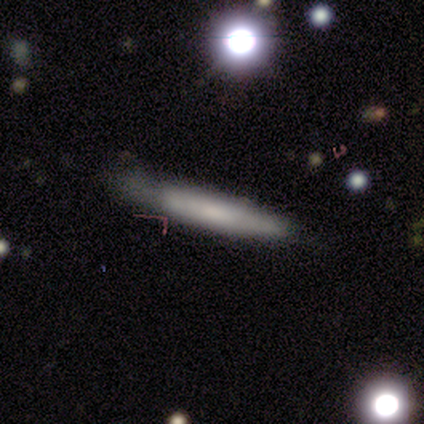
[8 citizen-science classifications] This is likely a smooth galaxy (75%). How rounded: clearly cigar-shaped (100%). Merging: marginally none (38%, tied with minor disturbance).